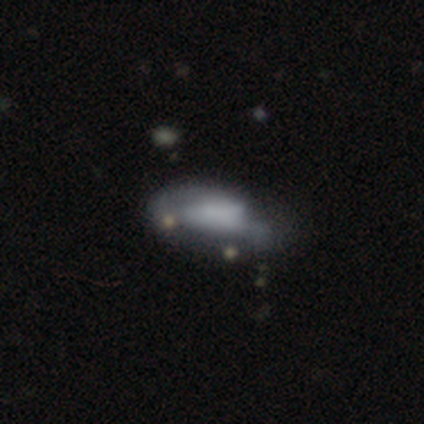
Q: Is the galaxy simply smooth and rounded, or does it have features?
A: featured or disk — 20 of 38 (53%).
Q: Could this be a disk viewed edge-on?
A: no — 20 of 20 (100%).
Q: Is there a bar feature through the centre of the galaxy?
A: no — 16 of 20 (80%).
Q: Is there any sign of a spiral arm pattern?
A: no — 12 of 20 (60%).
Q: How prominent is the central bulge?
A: none — 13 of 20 (65%).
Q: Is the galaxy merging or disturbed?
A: major disturbance — 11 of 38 (29%).